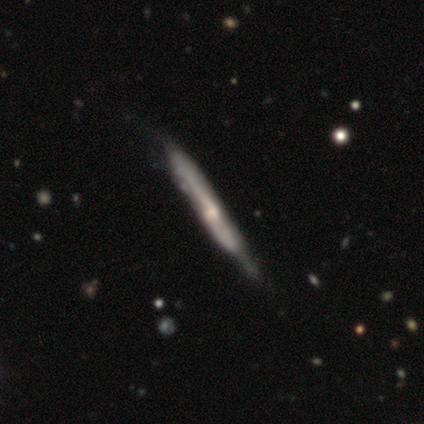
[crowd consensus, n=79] This is likely a featured or disk galaxy (77%). It is clearly viewed edge-on (93%). Edge-on bulge: possibly rounded (56%). Merging: marginally none (38%).